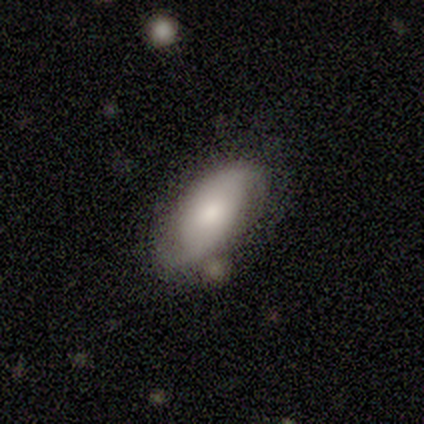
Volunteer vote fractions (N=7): Volunteers were most divided on "merging": none: 57%, major disturbance: 29%, merger: 14%, minor disturbance: 0%. More confident: edge-on disk — no (100%); bar — no (100%); spiral arm count — 2 (100%); spiral arms — yes (80%); bulge size — moderate (80%); spiral winding — tight (75%); smooth or featured — featured or disk (71%).